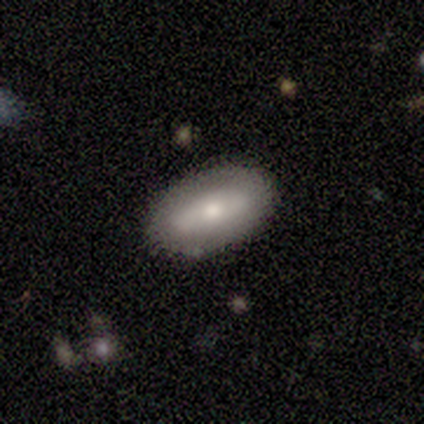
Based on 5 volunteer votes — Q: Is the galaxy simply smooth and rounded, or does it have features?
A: smooth — 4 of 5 (80%).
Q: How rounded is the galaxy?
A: in between — 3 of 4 (75%).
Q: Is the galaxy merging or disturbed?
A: none — 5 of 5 (100%).